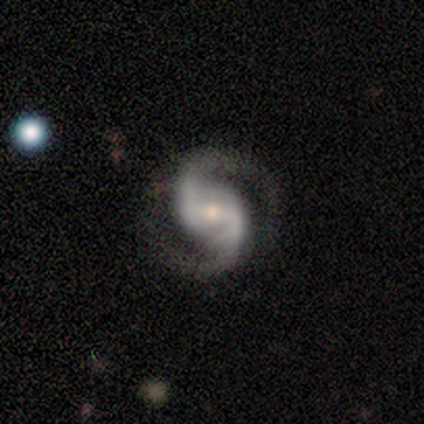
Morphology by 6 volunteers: Q: Smooth or featured?
A: featured or disk (100%)
Q: Edge-on disk?
A: no (100%)
Q: Bar?
A: weak (100%)
Q: Spiral arms?
A: yes (100%)
Q: Spiral winding?
A: medium (67%); runner-up: tight (17%)
Q: Spiral arm count?
A: 2 (100%)
Q: Bulge size?
A: moderate (67%); runner-up: small (33%)
Q: Merging?
A: none (100%)